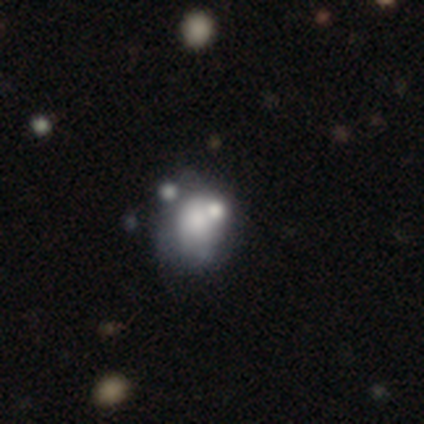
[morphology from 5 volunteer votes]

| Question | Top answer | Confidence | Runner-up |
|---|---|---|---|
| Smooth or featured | smooth | 60% | featured or disk (20%) |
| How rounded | round | 67% | in between (33%) |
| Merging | none | 75% | minor disturbance (25%) |